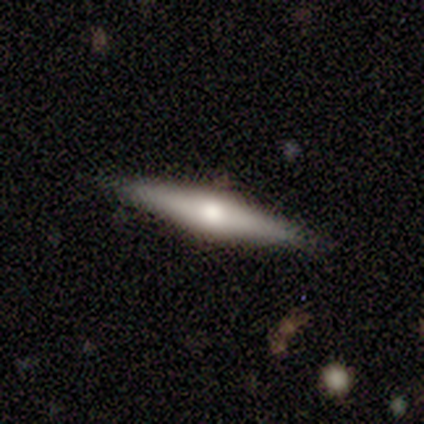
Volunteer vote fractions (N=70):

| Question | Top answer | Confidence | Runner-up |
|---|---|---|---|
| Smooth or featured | featured or disk | 71% | smooth (21%) |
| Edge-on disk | yes | 98% | no (2%) |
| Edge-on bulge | rounded | 80% | boxy (10%) |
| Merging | none | 92% | minor disturbance (5%) |